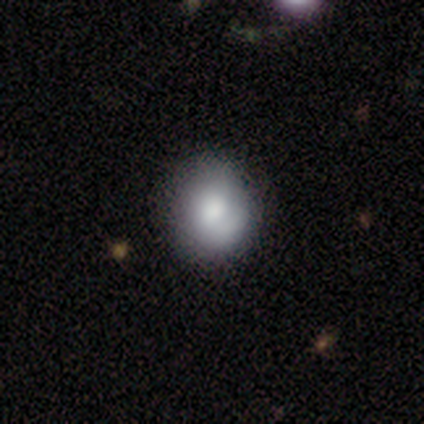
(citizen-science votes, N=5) Smooth or featured?
  - smooth: 60% *
  - featured or disk: 40%
  - star or artifact: 0%
How rounded?
  - round: 100% *
  - in between: 0%
  - cigar-shaped: 0%
Merging?
  - none: 80% *
  - minor disturbance: 20%
  - major disturbance: 0%
  - merger: 0%